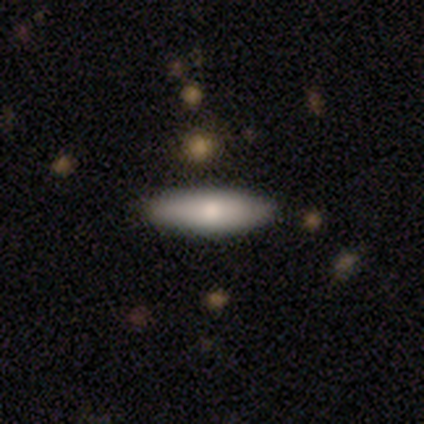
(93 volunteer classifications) A smooth galaxy with no disk features (69%) that is cigar-shaped (72%).

Vote fractions:
- Smooth or featured? smooth: 69% / featured or disk: 27% / star or artifact: 4%
- How rounded? cigar-shaped: 72% / in between: 27% / round: 2%
- Merging? none: 81% / minor disturbance: 15% / major disturbance: 4% / merger: 0%